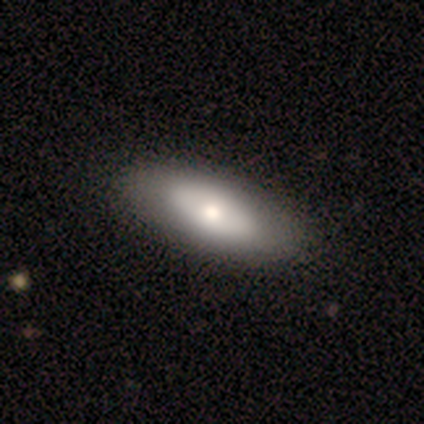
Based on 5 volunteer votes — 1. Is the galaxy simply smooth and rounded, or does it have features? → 40% smooth (tied), 40% featured or disk (tied), 20% star or artifact.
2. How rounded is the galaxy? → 50% in between (tied), 50% cigar-shaped (tied), 0% round.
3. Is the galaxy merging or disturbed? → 75% none, 25% minor disturbance, 0% major disturbance, 0% merger.